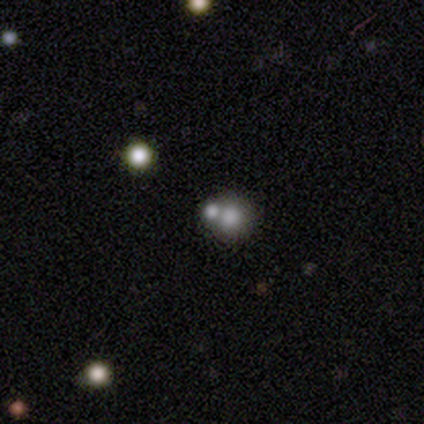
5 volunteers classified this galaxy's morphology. This is marginally a smooth galaxy (40%, tied with star or artifact). How rounded: clearly round (100%). Merging: likely merger (67%).